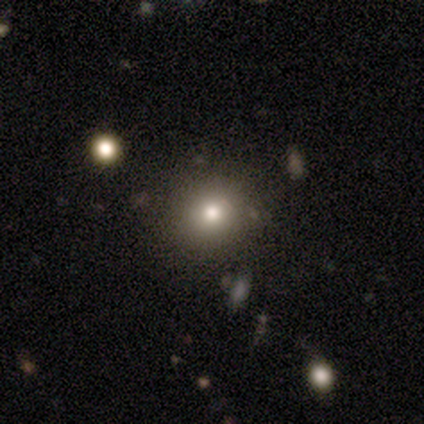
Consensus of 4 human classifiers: smooth_or_featured: smooth (p=0.50) [tied with: star or artifact p=0.50]
how_rounded: round (p=0.50) [tied with: in between p=0.50]
merging: none (p=1.00)